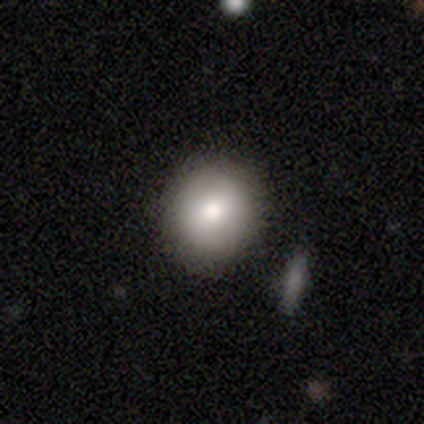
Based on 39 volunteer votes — Smooth or featured: smooth — 82% (star or artifact — 10%)
How rounded: round — 81% (in between — 19%)
Merging: none — 86% (minor disturbance — 9%)